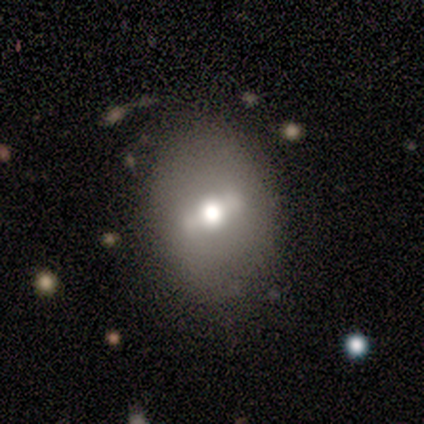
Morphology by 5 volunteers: Smooth or featured: featured or disk — 60% (smooth — 40%)
Edge-on disk: no — 100%
Bar: weak — 67% (strong — 33%)
Spiral arms: no — 100%
Bulge size: moderate — 100%
Merging: none — 60% (minor disturbance — 20%)